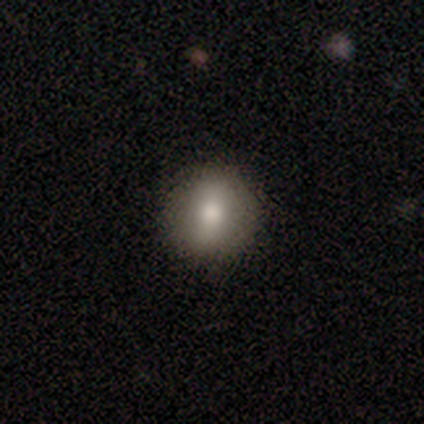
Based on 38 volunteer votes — This is likely a smooth galaxy (68%). How rounded: clearly round (81%). Merging: clearly none (94%).